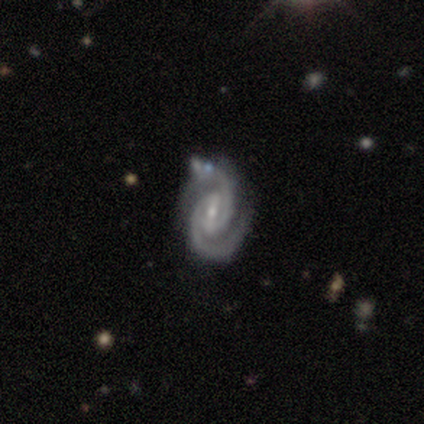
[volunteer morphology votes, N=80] Smooth or featured?
  - featured or disk: 95% *
  - smooth: 2%
  - star or artifact: 2%
Edge-on disk?
  - no: 97% *
  - yes: 3%
Bar?
  - weak: 45% *
  - strong: 42%
  - no: 14%
Spiral arms?
  - yes: 100% *
  - no: 0%
Spiral winding?
  - tight: 53% *
  - medium: 41%
  - loose: 7%
Spiral arm count?
  - 2: 93% *
  - 3: 3%
  - can't tell: 3%
  - 1: 1%
  - 4: 0%
  - more than 4: 0%
Bulge size?
  - small: 64% *
  - moderate: 36%
  - dominant: 0%
  - large: 0%
  - none: 0%
Merging?
  - none: 35% *
  - minor disturbance: 10%
  - merger: 8%
  - major disturbance: 4%